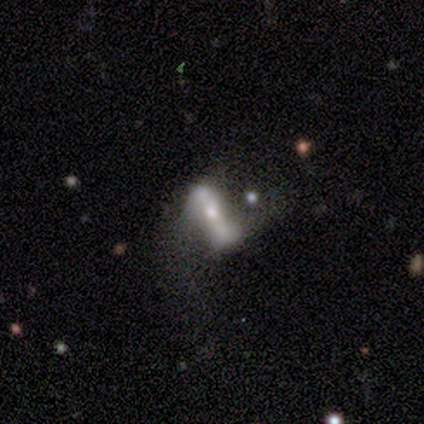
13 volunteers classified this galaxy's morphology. smooth_or_featured: featured or disk (p=0.92) [alt: star or artifact p=0.08]
disk_edge_on: no (p=0.75) [alt: yes p=0.25]
bar: strong (p=0.44) [alt: no p=0.33]
has_spiral_arms: no (p=0.56) [alt: yes p=0.44]
bulge_size: small (p=0.56) [alt: moderate p=0.33]
merging: none (p=0.33) [tied with: major disturbance p=0.33]